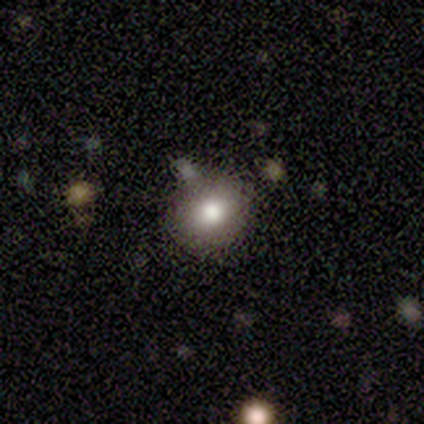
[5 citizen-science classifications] This appears to be a smooth galaxy with no disk features (100%) that is round (60%). Merging: none (60%).